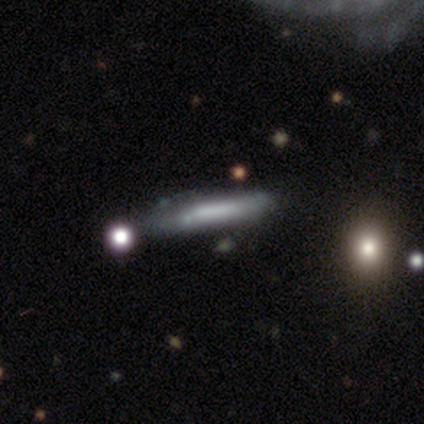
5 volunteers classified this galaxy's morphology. smooth 60%, featured or disk 40%, star or artifact 0%. Down the decision tree: how rounded — cigar-shaped (100%); merging — none (60%).